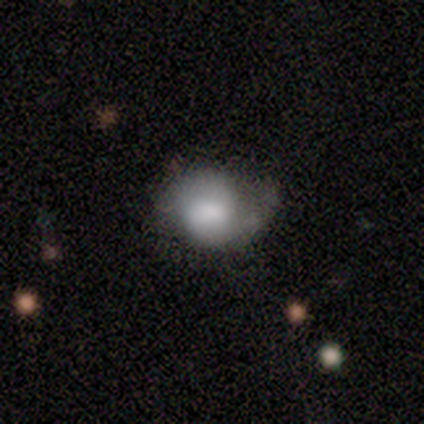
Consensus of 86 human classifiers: Morphology: type=smooth (58%); roundness=in between (56%); merging=minor disturbance (43%).